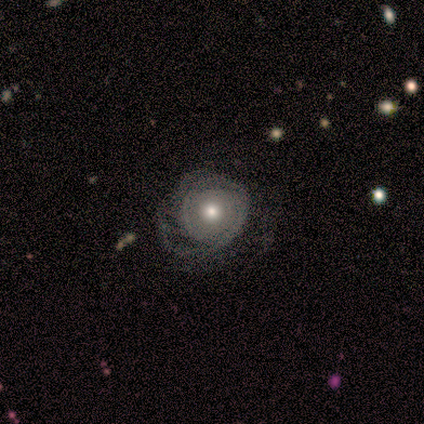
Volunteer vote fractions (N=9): Smooth or featured: featured or disk — 78% (smooth — 22%)
Edge-on disk: no — 100%
Bar: no — 57% (weak — 43%)
Spiral arms: yes — 100%
Spiral winding: medium — 57% (tight — 29%)
Spiral arm count: can't tell — 71% (1 — 14%)
Bulge size: moderate — 43% (tied with small — 43%)
Merging: major disturbance — 56% (none — 33%)